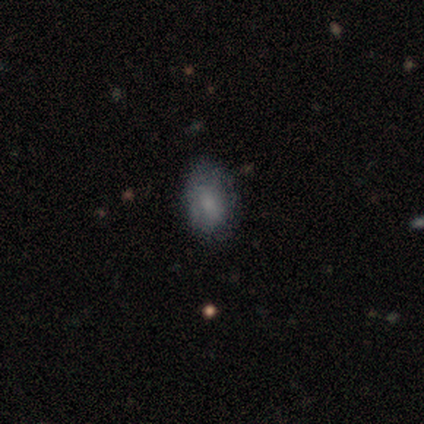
Smooth or featured?
  - featured or disk: 80% *
  - smooth: 20%
  - star or artifact: 0%
Edge-on disk?
  - no: 100% *
  - yes: 0%
Bar?
  - no: 75% *
  - weak: 25%
  - strong: 0%
Spiral arms?
  - no: 75% *
  - yes: 25%
Bulge size?
  - large: 25% * (tied)
  - moderate: 25% * (tied)
  - small: 25% * (tied)
  - none: 25% * (tied)
  - dominant: 0%
Merging?
  - none: 60% *
  - minor disturbance: 40%
  - major disturbance: 0%
  - merger: 0%